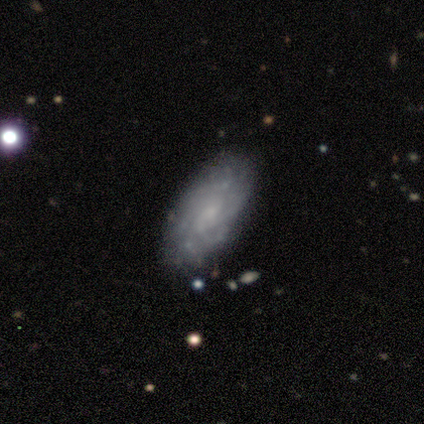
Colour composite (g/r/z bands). It shows a featured or disk galaxy (80%) with no bar (75%), tight (50%, tied with medium) spiral arms (100%) and a small central bulge (50%, tied with none). Merging: none (80%).